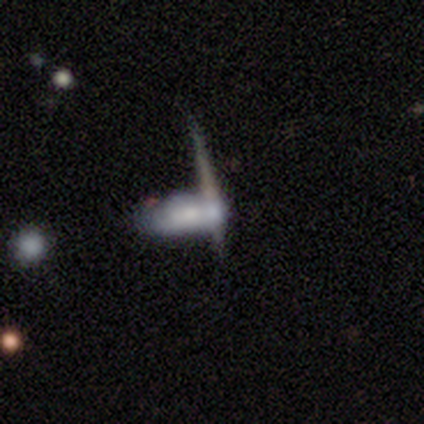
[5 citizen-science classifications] Smooth or featured? 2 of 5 (40%, tied with featured or disk) said smooth. How rounded? 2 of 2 (100%) said in between. Merging? 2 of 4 (50%) said none.